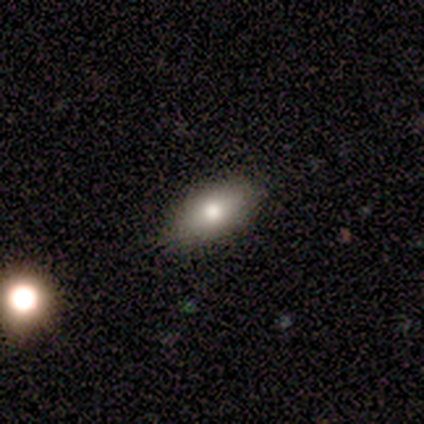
Smooth or featured: smooth — 75% (featured or disk — 25%)
How rounded: cigar-shaped — 67% (in between — 33%)
Merging: none — 100%